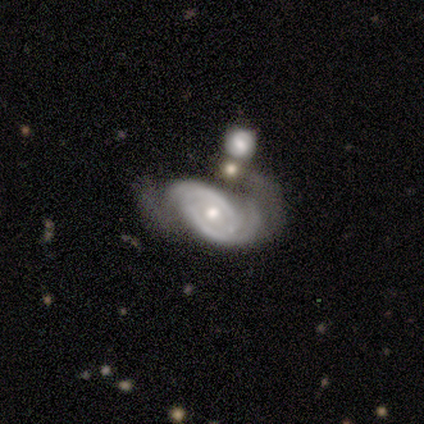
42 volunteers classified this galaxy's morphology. Smooth or featured: featured or disk — 93% (star or artifact — 5%)
Edge-on disk: no — 100%
Bar: no — 90% (strong — 8%)
Spiral arms: yes — 95% (no — 5%)
Spiral winding: tight — 62% (medium — 30%)
Spiral arm count: 2 — 81% (4 — 8%)
Bulge size: moderate — 69% (small — 23%)
Merging: none — 30% (minor disturbance — 25%)